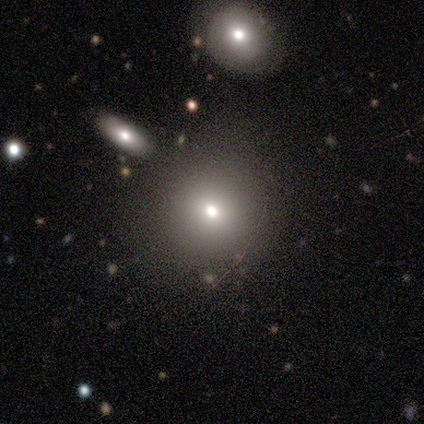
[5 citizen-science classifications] Smooth or featured? smooth (80%)
How rounded? round (100%)
Merging? none (80%)